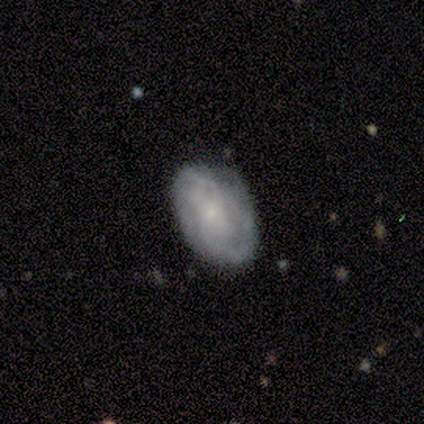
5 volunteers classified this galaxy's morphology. Volunteers were most divided on "smooth or featured": featured or disk: 60%, smooth: 40%, star or artifact: 0%. More confident: edge-on disk — no (100%); bar — no (100%); spiral arms — yes (100%); bulge size — small (100%); merging — none (80%); spiral winding — medium (67%); spiral arm count — 2 (67%).